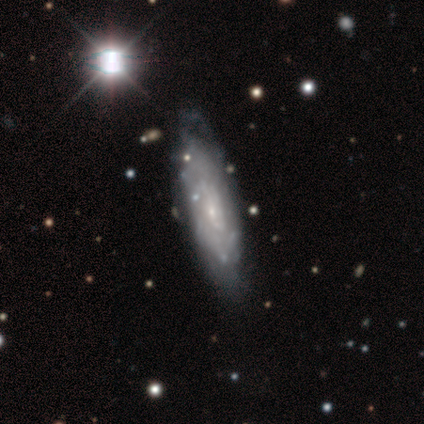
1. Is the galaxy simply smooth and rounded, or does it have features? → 100% smooth, 0% featured or disk, 0% star or artifact.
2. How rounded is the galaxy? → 100% cigar-shaped, 0% round, 0% in between.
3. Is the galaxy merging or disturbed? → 100% none, 0% minor disturbance, 0% major disturbance, 0% merger.